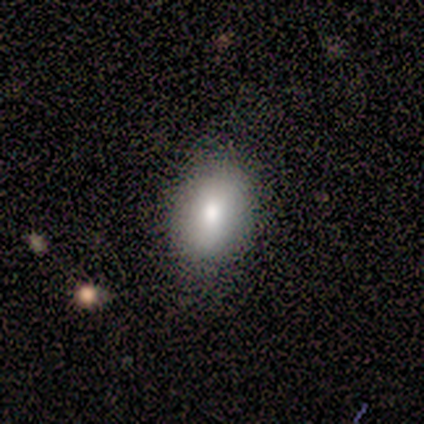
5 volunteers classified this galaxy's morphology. Q: Smooth or featured?
A: smooth (80%); runner-up: featured or disk (20%)
Q: How rounded?
A: in between (75%); runner-up: round (25%)
Q: Merging?
A: none (80%); runner-up: minor disturbance (20%)